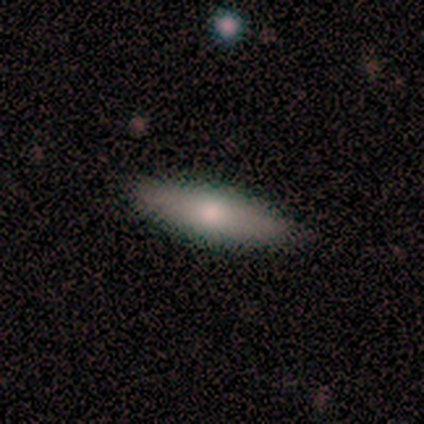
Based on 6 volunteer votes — Smooth or featured?
  - smooth: 83% *
  - featured or disk: 17%
  - star or artifact: 0%
How rounded?
  - in between: 60% *
  - cigar-shaped: 40%
  - round: 0%
Merging?
  - none: 100% *
  - minor disturbance: 0%
  - major disturbance: 0%
  - merger: 0%